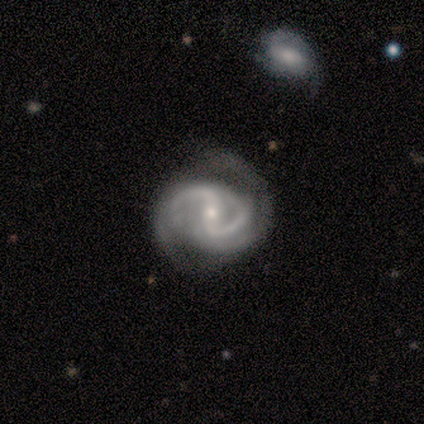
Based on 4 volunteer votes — smooth_or_featured: featured or disk (p=1.00)
disk_edge_on: no (p=1.00)
bar: weak (p=0.75) [alt: strong p=0.25]
has_spiral_arms: yes (p=1.00)
spiral_winding: tight (p=0.75) [alt: medium p=0.25]
spiral_arm_count: 2 (p=1.00)
bulge_size: moderate (p=0.50) [tied with: small p=0.50]
merging: none (p=0.50) [alt: minor disturbance p=0.25]